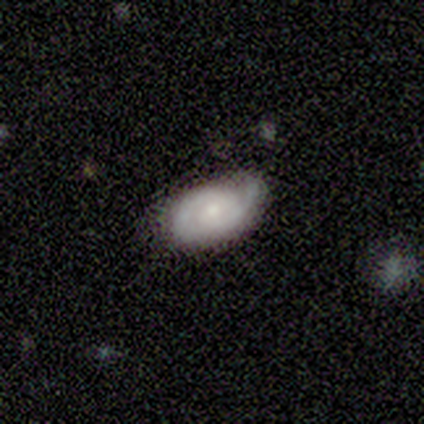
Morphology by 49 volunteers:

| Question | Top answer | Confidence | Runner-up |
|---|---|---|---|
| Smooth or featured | featured or disk | 65% | smooth (29%) |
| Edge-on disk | no | 91% | yes (9%) |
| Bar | no | 69% | weak (31%) |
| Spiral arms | yes | 93% | no (7%) |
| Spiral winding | tight | 56% | medium (33%) |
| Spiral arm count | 2 | 85% | 1 (7%) |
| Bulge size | moderate | 45% | tied: small (45%) |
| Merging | none | 50% | minor disturbance (39%) |